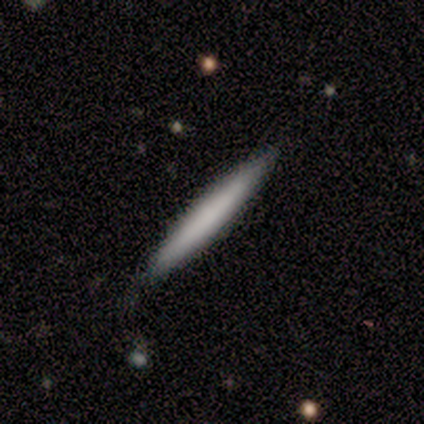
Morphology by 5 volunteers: Smooth or featured? 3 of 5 (60%) said featured or disk. Edge-on disk? 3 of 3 (100%) said yes. Edge-on bulge? 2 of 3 (67%) said none. Merging? 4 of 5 (80%) said none.